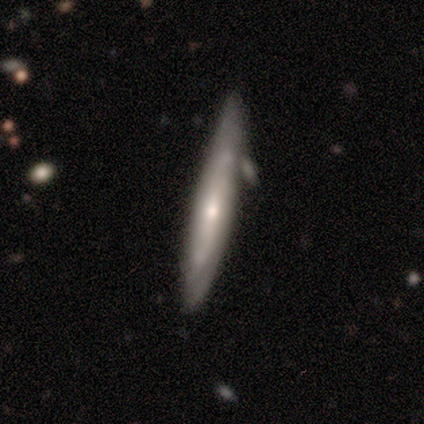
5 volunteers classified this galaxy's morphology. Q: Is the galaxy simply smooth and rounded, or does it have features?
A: featured or disk — 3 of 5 (60%).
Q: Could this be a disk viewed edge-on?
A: yes — 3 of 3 (100%).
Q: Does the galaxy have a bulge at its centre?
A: rounded — 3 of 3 (100%).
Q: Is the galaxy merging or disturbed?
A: none — 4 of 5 (80%).